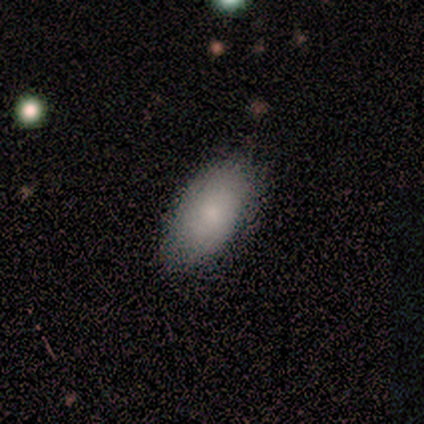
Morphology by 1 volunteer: This appears to be a smooth galaxy with no disk features (100%) that is in between round and cigar-shaped (100%). Merging: none (100%).